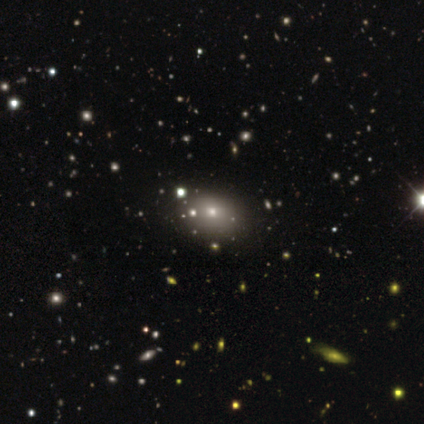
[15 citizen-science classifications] This is possibly a smooth galaxy (47%). How rounded: likely in between (71%). Merging: clearly none (100%).